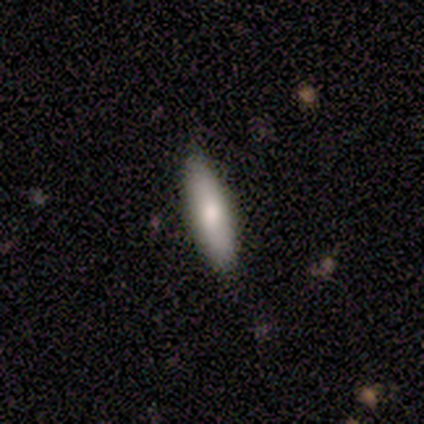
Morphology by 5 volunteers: Smooth or featured?
  - smooth: 100% *
  - featured or disk: 0%
  - star or artifact: 0%
How rounded?
  - cigar-shaped: 60% *
  - in between: 40%
  - round: 0%
Merging?
  - none: 100% *
  - minor disturbance: 0%
  - major disturbance: 0%
  - merger: 0%